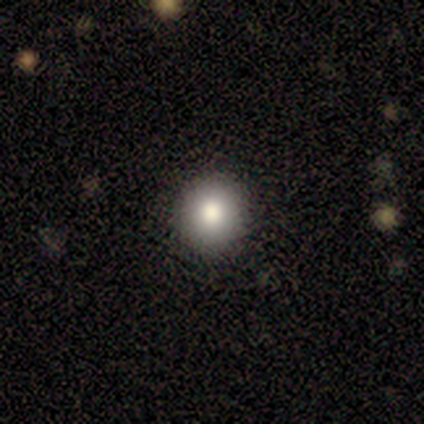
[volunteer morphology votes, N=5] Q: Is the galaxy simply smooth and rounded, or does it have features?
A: smooth — 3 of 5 (60%).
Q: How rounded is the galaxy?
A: round — 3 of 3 (100%).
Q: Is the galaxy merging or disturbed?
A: none — 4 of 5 (80%).